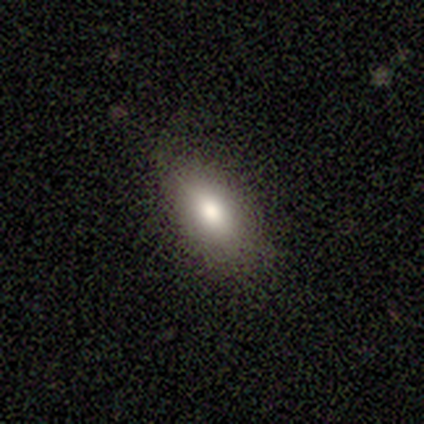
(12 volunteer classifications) A smooth galaxy with no disk features (75%) that is in between round and cigar-shaped (100%). Merging: none (100%).